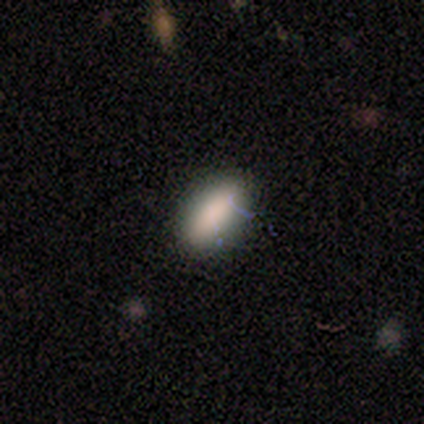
Smooth or featured: smooth — 86% (star or artifact — 11%)
How rounded: in between — 97% (cigar-shaped — 3%)
Merging: none — 84% (minor disturbance — 12%)